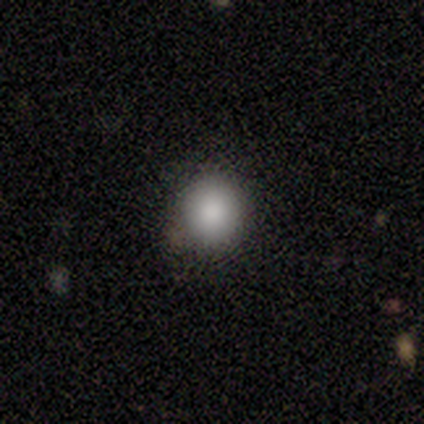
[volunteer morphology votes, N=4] A smooth galaxy with no disk features (100%) that is round (100%).

Vote fractions:
- Smooth or featured? smooth: 100% / featured or disk: 0% / star or artifact: 0%
- How rounded? round: 100% / in between: 0% / cigar-shaped: 0%
- Merging? none: 75% / minor disturbance: 25% / major disturbance: 0% / merger: 0%